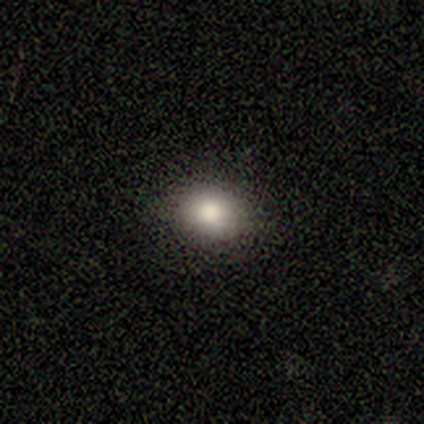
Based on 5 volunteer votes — Morphology: type=smooth (80%); roundness=in between (100%); merging=none (100%).